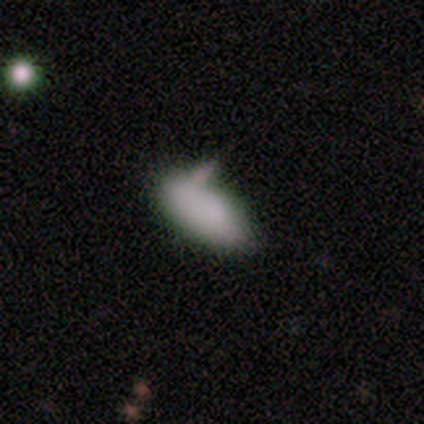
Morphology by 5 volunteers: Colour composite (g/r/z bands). It shows a smooth galaxy with no disk features (80%) that is in between round and cigar-shaped (100%). Merging: none (40%, tied with minor disturbance).